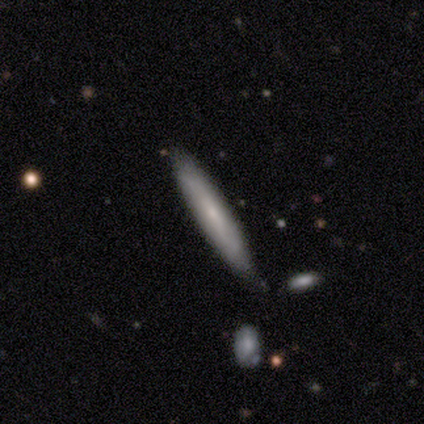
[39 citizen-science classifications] Morphology: type=featured or disk (54%); edge-on=yes (71%); edge-on bulge=none (73%); merging=none (72%).